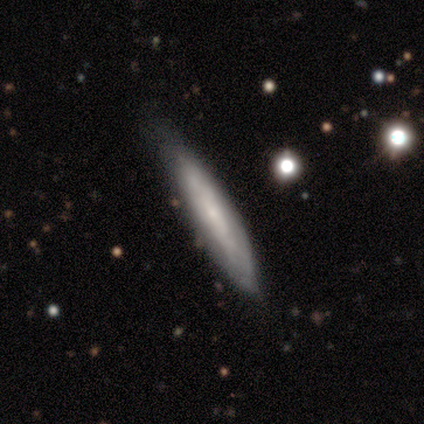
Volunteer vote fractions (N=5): Smooth or featured? smooth (80%)
How rounded? cigar-shaped (100%)
Merging? minor disturbance (60%)